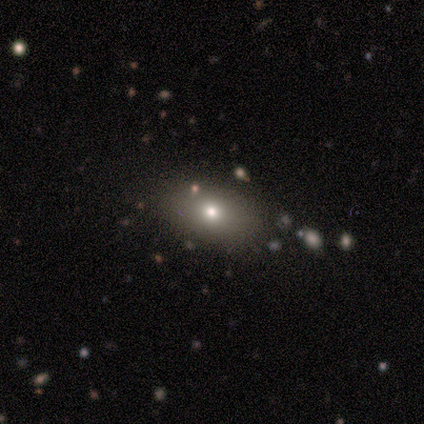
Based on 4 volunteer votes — A smooth galaxy with no disk features (75%) that is in between round and cigar-shaped (67%).

Vote fractions:
- Smooth or featured? smooth: 75% / featured or disk: 25% / star or artifact: 0%
- How rounded? in between: 67% / round: 33% / cigar-shaped: 0%
- Merging? none: 100% / minor disturbance: 0% / major disturbance: 0% / merger: 0%